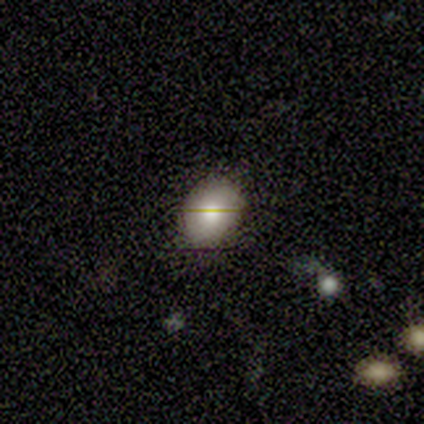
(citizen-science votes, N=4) Smooth or featured? 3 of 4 (75%) said smooth. How rounded? 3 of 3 (100%) said in between. Merging? 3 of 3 (100%) said none.